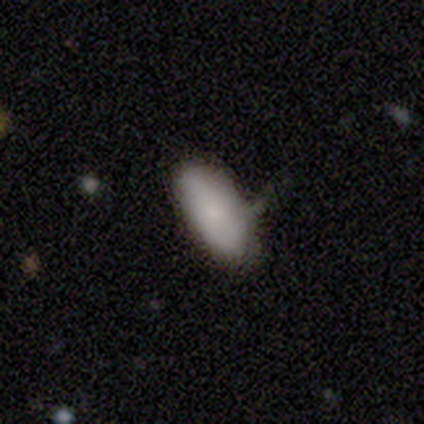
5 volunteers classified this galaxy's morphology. Smooth or featured?
  - smooth: 80% *
  - star or artifact: 20%
  - featured or disk: 0%
How rounded?
  - in between: 75% *
  - cigar-shaped: 25%
  - round: 0%
Merging?
  - minor disturbance: 100% *
  - none: 0%
  - major disturbance: 0%
  - merger: 0%